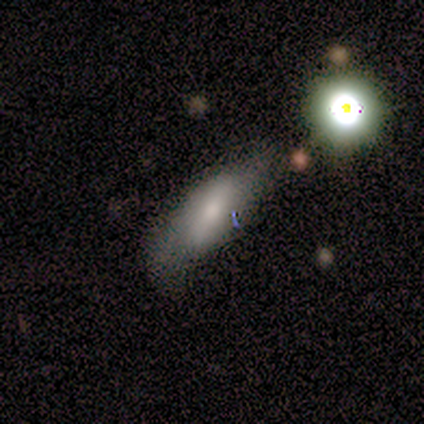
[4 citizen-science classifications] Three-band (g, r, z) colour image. It shows a smooth galaxy with no disk features (50%) that is in between round and cigar-shaped (50%, tied with cigar-shaped). Merging: none (67%).